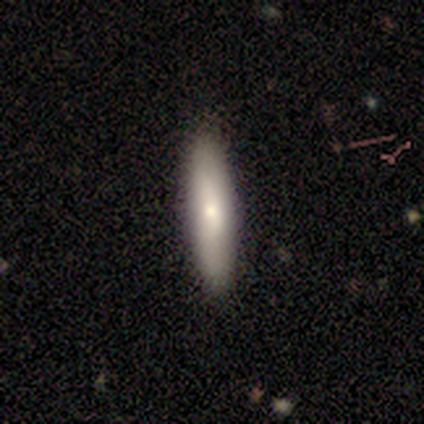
A smooth galaxy with no disk features (100%) that is cigar-shaped (75%).

Vote fractions:
- Smooth or featured? smooth: 100% / featured or disk: 0% / star or artifact: 0%
- How rounded? cigar-shaped: 75% / in between: 25% / round: 0%
- Merging? none: 100% / minor disturbance: 0% / major disturbance: 0% / merger: 0%